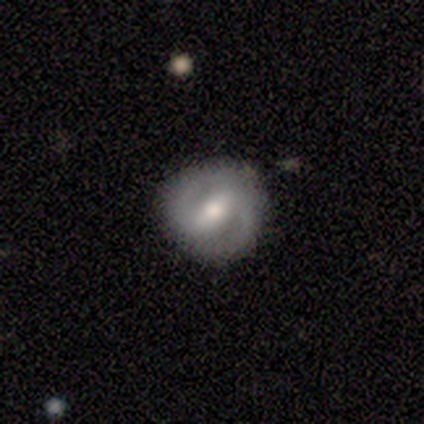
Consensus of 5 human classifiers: Smooth or featured? featured or disk (100%)
Edge-on disk? no (100%)
Bar? strong (60%)
Spiral arms? yes (80%)
Spiral winding? tight (50%, tied with loose)
Spiral arm count? 2 (100%)
Bulge size? moderate (60%)
Merging? none (100%)